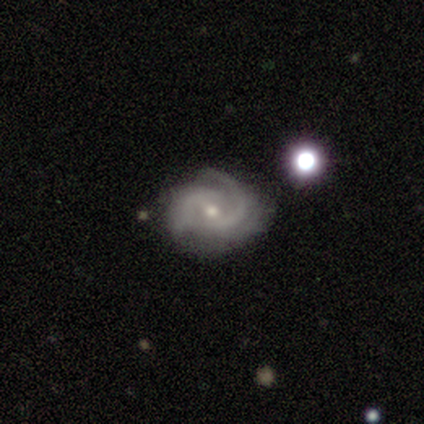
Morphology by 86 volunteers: type=featured or disk (90%); edge-on=no (99%); bar=weak (55%); spiral arms=yes (99%); winding=medium (48%); arm count=2 (65%); bulge=small (53%); merging=none (71%).